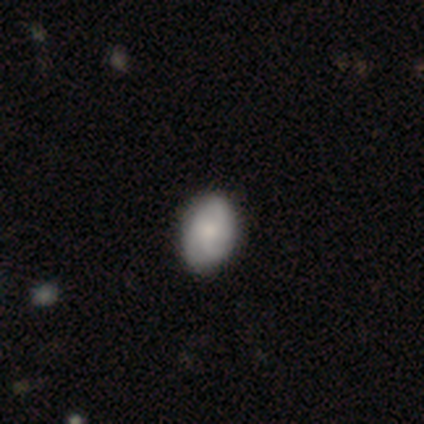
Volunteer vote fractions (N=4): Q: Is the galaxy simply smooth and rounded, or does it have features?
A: smooth — 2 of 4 (50%, tied with featured or disk).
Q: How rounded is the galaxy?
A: round — 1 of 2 (50%, tied with in between).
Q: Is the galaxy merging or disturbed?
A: none — 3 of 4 (75%).